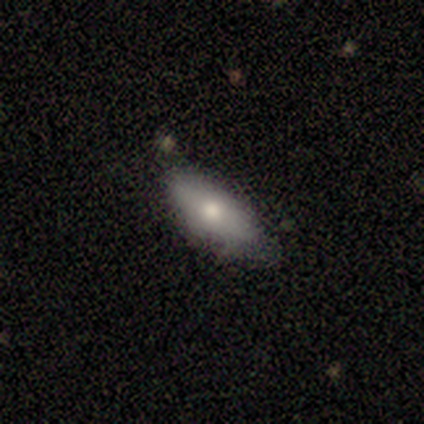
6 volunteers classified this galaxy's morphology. Overall: smooth (67%; featured or disk 33%). How rounded: in between (75%). Merging: none (67%).